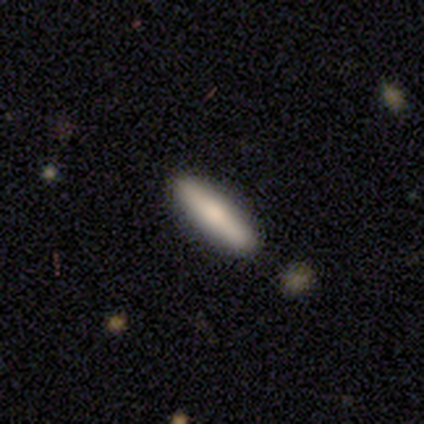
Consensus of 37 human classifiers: smooth-or-featured: smooth: 62% | featured or disk: 30% | star or artifact: 8%
  how-rounded: cigar-shaped: 78% | in between: 22% | round: 0%
  merging: none: 91% | minor disturbance: 6% | major disturbance: 3% | merger: 0%